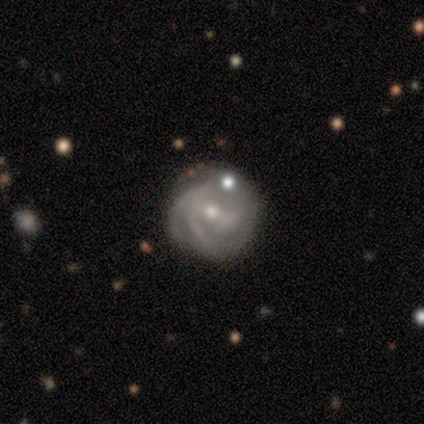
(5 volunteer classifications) Morphology: type=featured or disk (100%); edge-on=no (100%); bar=strong (40%, tied with weak); spiral arms=yes (100%); winding=medium (60%); arm count=2 (60%); bulge=moderate (100%); merging=none (60%).